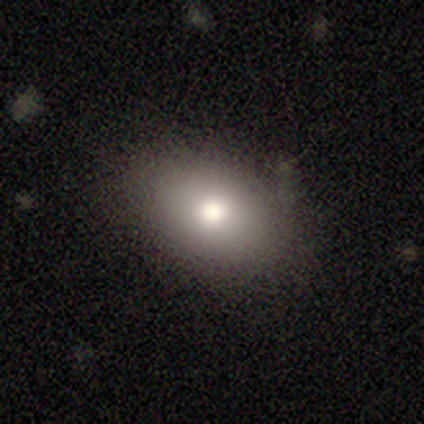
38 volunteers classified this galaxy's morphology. Volunteers were most divided on "how rounded": in between: 80%, round: 20%, cigar-shaped: 0%. More confident: smooth or featured — smooth (79%); merging — none (79%).